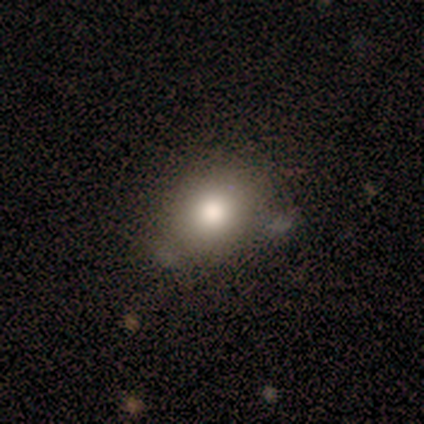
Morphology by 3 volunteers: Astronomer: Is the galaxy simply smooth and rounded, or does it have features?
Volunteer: smooth — 67%.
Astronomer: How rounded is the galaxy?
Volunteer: round — 50%, tied with in between at 50%.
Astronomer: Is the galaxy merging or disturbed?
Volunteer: none — 50%, tied with major disturbance at 50%.